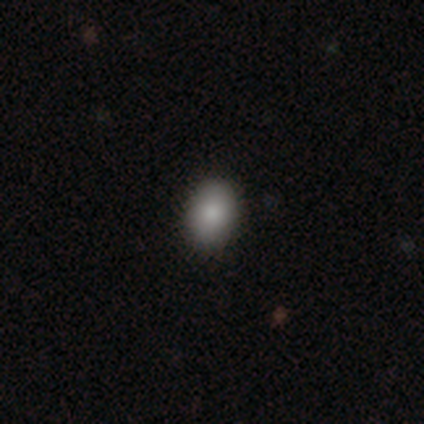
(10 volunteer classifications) Smooth or featured?
  - smooth: 100% *
  - featured or disk: 0%
  - star or artifact: 0%
How rounded?
  - in between: 70% *
  - round: 30%
  - cigar-shaped: 0%
Merging?
  - none: 100% *
  - minor disturbance: 0%
  - major disturbance: 0%
  - merger: 0%